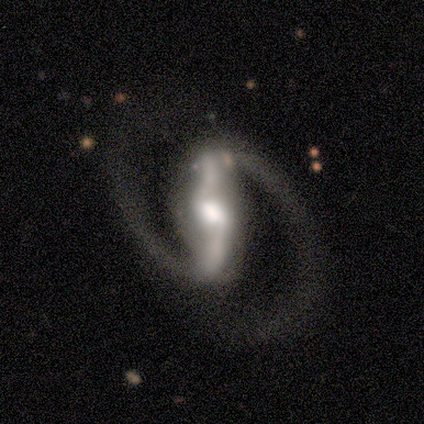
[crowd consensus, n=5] smooth-or-featured: featured or disk: 80% | star or artifact: 20% | smooth: 0%
  disk-edge-on: yes: 50% (tied) | no: 50% (tied)
    edge-on-bulge: boxy: 50% (tied) | rounded: 50% (tied) | none: 0%
  merging: none: 50% (tied) | major disturbance: 50% (tied) | minor disturbance: 0% | merger: 0%